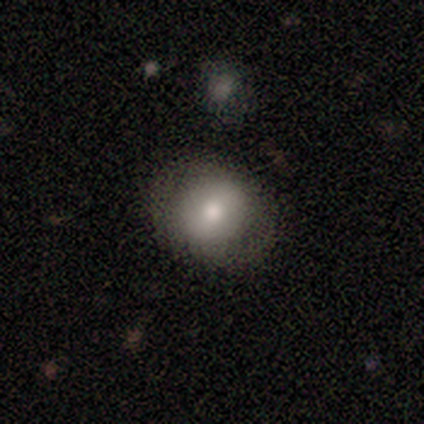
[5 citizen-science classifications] smooth_or_featured: smooth (p=0.80) [alt: featured or disk p=0.20]
how_rounded: round (p=1.00)
merging: none (p=0.80) [alt: minor disturbance p=0.20]